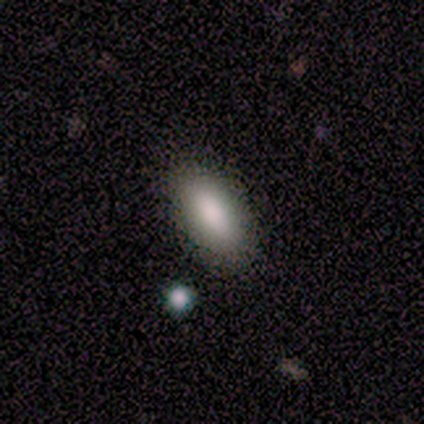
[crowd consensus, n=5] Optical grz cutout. It shows a smooth galaxy with no disk features (60%) that is in between round and cigar-shaped (100%). Merging: none (67%).